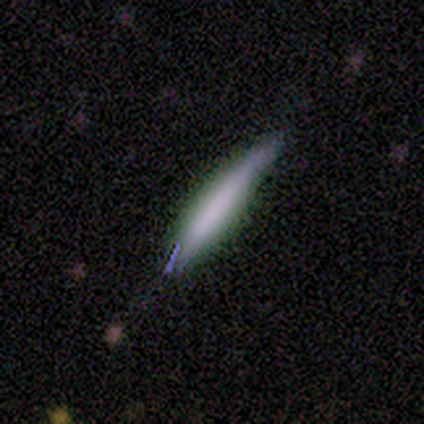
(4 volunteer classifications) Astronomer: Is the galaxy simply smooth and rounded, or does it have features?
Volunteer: smooth — 50%, tied with featured or disk at 50%.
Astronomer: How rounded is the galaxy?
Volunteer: cigar-shaped — 100%.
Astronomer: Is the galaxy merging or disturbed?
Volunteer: minor disturbance — 75%.